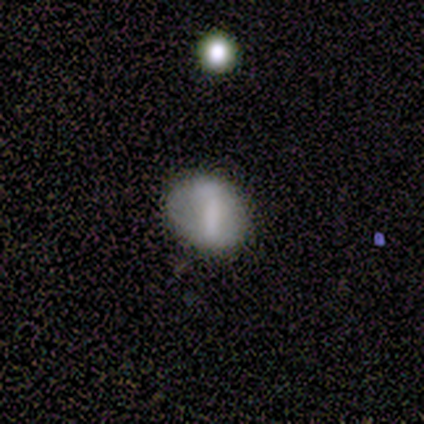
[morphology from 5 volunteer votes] Smooth or featured?
  - smooth: 60% *
  - featured or disk: 20%
  - star or artifact: 20%
How rounded?
  - in between: 100% *
  - round: 0%
  - cigar-shaped: 0%
Merging?
  - none: 50% * (tied)
  - minor disturbance: 50% * (tied)
  - major disturbance: 0%
  - merger: 0%